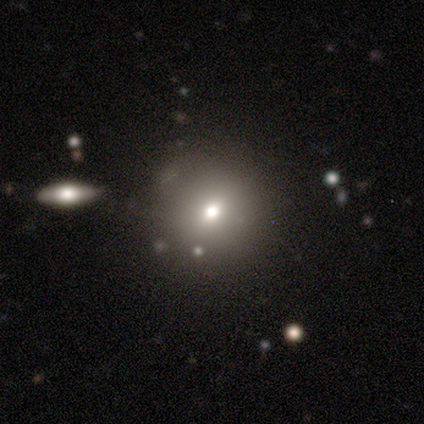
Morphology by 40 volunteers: This appears to be a smooth galaxy with no disk features (65%) that is round (85%). Merging: none (63%).